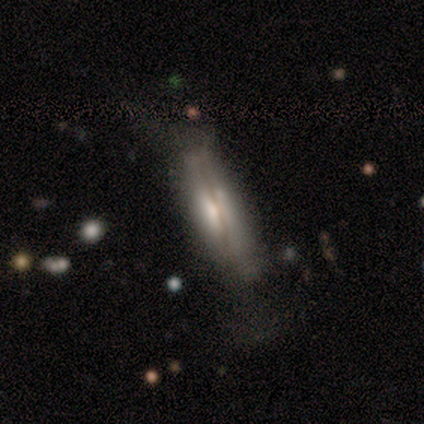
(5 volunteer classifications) Smooth or featured?
  - smooth: 40% * (tied)
  - featured or disk: 40% * (tied)
  - star or artifact: 20%
How rounded?
  - in between: 50% * (tied)
  - cigar-shaped: 50% * (tied)
  - round: 0%
Merging?
  - none: 75% *
  - major disturbance: 25%
  - minor disturbance: 0%
  - merger: 0%